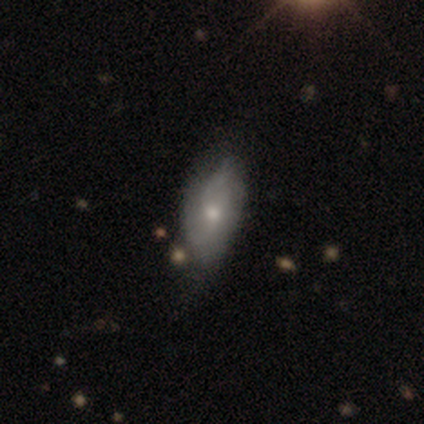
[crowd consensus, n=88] A smooth galaxy with no disk features (56%) that is in between round and cigar-shaped (86%). Merging: none (54%).